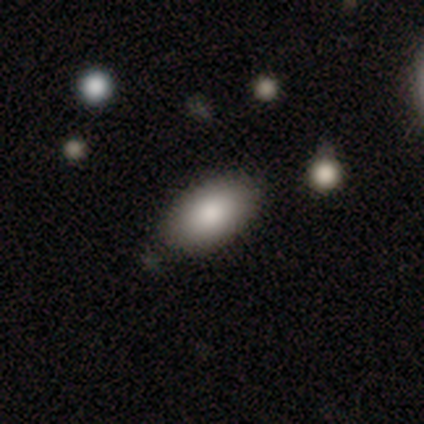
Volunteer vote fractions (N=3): Volunteers were most divided on "merging": none: 67%, minor disturbance: 33%, major disturbance: 0%, merger: 0%. More confident: smooth or featured — smooth (100%); how rounded — in between (100%).